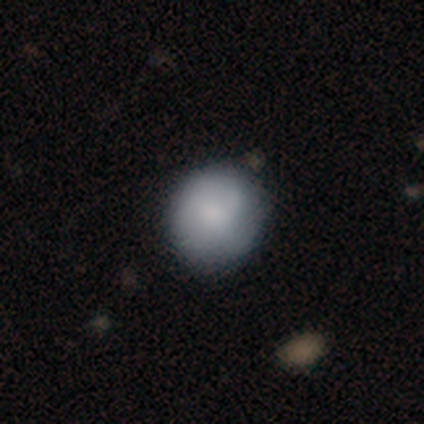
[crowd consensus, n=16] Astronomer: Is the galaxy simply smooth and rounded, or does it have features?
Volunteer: smooth — 81%.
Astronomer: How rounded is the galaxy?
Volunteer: round — 69%.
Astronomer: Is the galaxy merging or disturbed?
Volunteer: none — 81%.